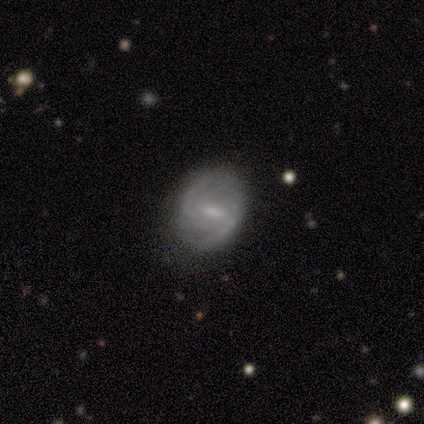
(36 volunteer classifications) featured or disk 72%, smooth 22%, star or artifact 6%. Down the decision tree: edge-on disk — no (100%); bar — weak (62%); spiral arms — yes (96%); spiral arm count — 2 (60%); spiral winding — medium (48%); bulge size — small (42%); merging — none (91%).